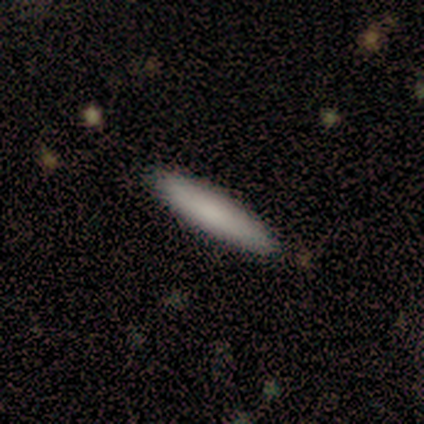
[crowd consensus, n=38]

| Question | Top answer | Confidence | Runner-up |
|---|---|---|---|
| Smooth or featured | smooth | 89% | featured or disk (5%) |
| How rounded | cigar-shaped | 97% | in between (3%) |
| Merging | none | 92% | minor disturbance (6%) |